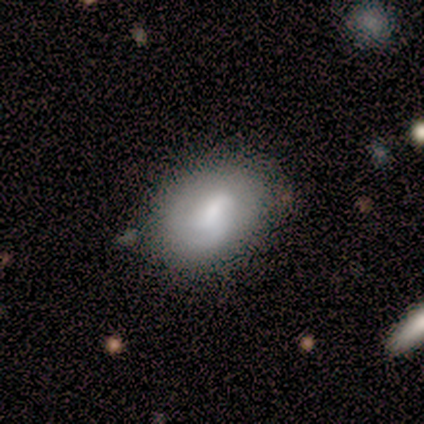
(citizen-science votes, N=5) Smooth or featured? featured or disk (60%)
Edge-on disk? no (100%)
Bar? weak (67%)
Spiral arms? yes (100%)
Spiral winding? tight (33%, tied with medium and loose)
Spiral arm count? 1 (67%)
Bulge size? moderate (33%, tied with small and none)
Merging? none (100%)